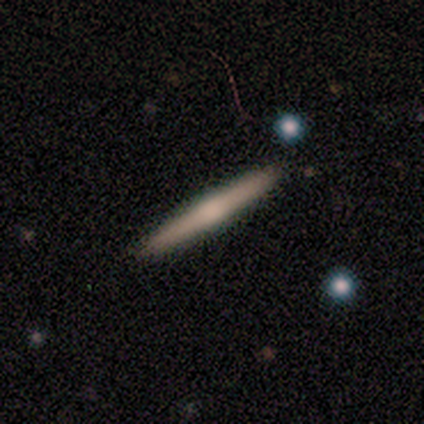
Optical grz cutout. It shows a featured or disk galaxy (75%) viewed edge-on (100%) with a rounded central bulge (67%). Merging: none (100%).